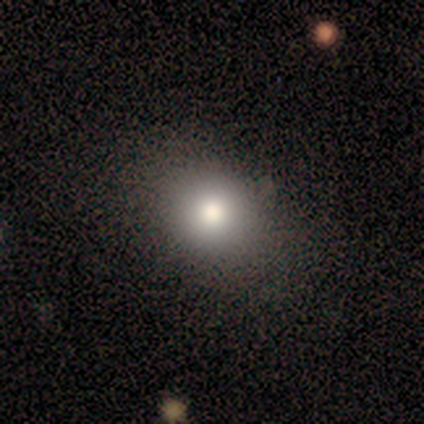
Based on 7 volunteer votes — smooth 57%, star or artifact 43%, featured or disk 0%. Down the decision tree: how rounded — round (100%); merging — none (75%).